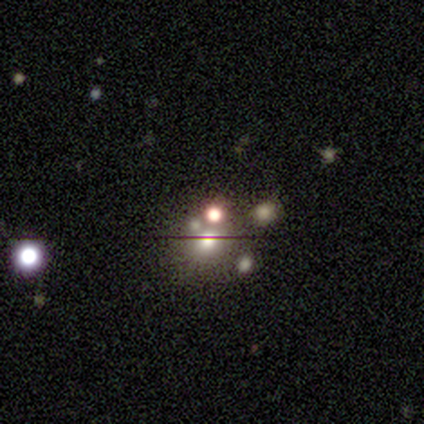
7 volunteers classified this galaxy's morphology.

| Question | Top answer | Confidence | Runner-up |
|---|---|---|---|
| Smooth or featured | star or artifact | 57% | smooth (43%) |